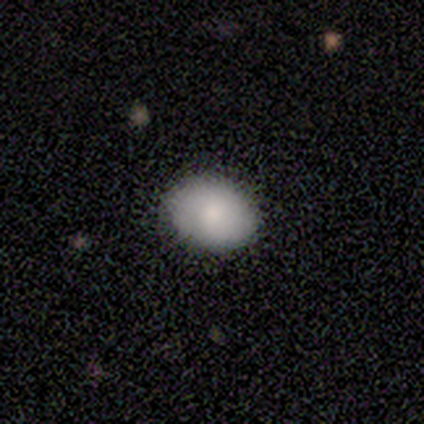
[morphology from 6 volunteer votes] This appears to be a smooth galaxy with no disk features (83%) that is in between round and cigar-shaped (80%). Merging: none (100%).